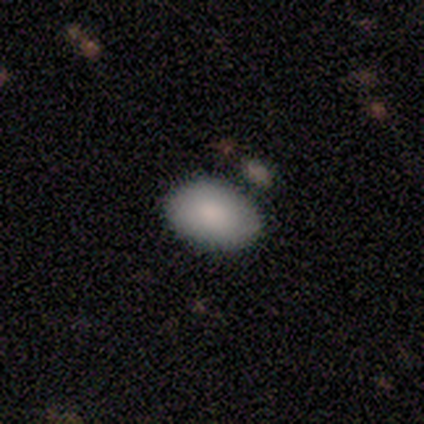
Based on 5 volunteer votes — A smooth galaxy with no disk features (100%) that is in between round and cigar-shaped (100%). Merging: none (80%).